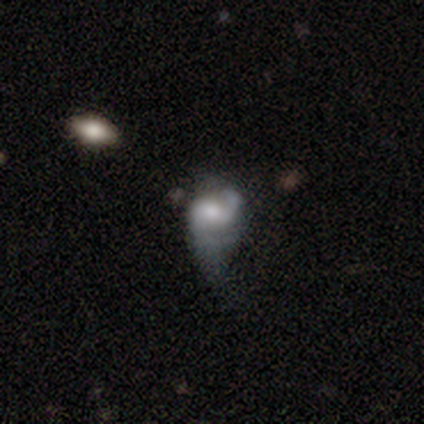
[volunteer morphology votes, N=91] This appears to be a featured or disk galaxy (60%) with no bar (54%), 2 (62%) medium (57%) spiral arms (78%) and a moderate central bulge (43%). Merging: major disturbance (56%).